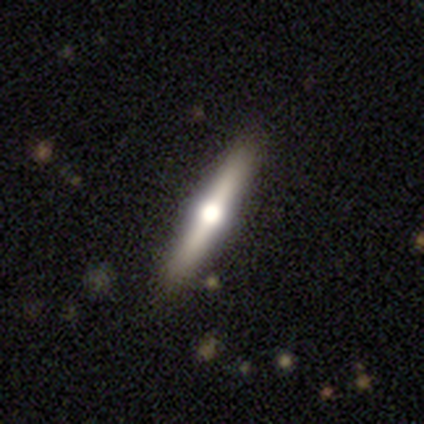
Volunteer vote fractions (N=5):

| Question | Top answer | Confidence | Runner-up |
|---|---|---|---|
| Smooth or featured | featured or disk | 80% | smooth (20%) |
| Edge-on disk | yes | 100% | — |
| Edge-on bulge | rounded | 100% | — |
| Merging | none | 100% | — |